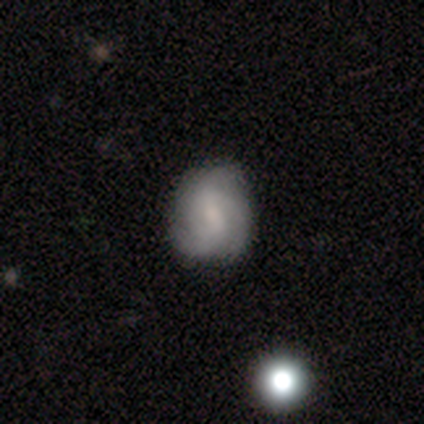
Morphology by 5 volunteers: Overall: featured or disk (60%; smooth 40%). Edge-on disk: no (100%). Bar: no (67%; weak 33%). Spiral arms: yes (100%). Spiral arm count: 3 (100%). Spiral winding: tight (33%, tied with medium and loose). Bulge size: small (67%; moderate 33%). Merging: none (80%).